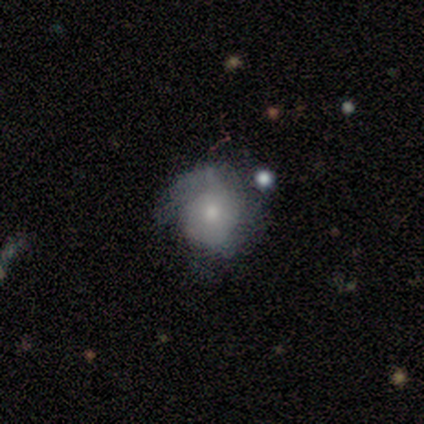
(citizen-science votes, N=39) This appears to be a smooth galaxy with no disk features (54%) that is round (81%). Merging: minor disturbance (43%).